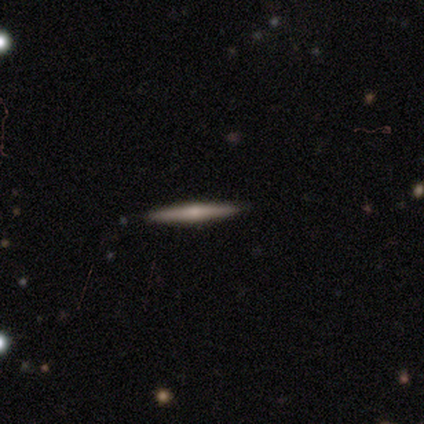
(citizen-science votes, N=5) Q: Smooth or featured?
A: featured or disk (60%); runner-up: smooth (40%)
Q: Edge-on disk?
A: yes (100%)
Q: Edge-on bulge?
A: rounded (100%)
Q: Merging?
A: none (100%)